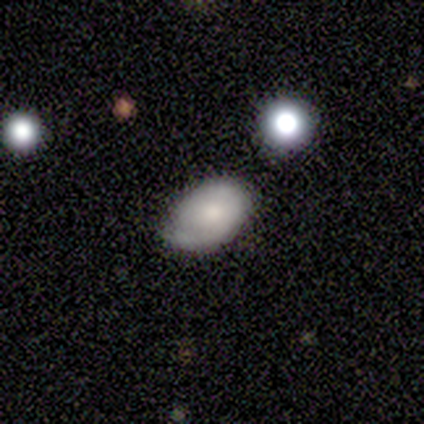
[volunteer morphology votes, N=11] Volunteers were most divided on "smooth or featured": smooth: 64%, featured or disk: 36%, star or artifact: 0%. More confident: how rounded — in between (100%); merging — none (64%).